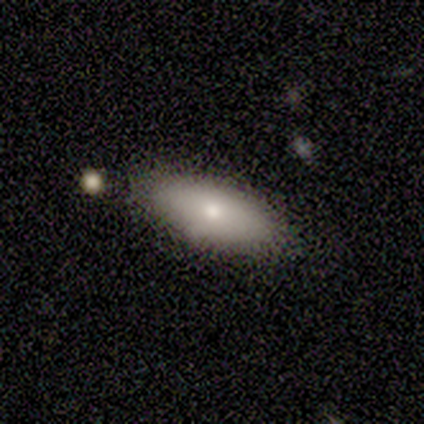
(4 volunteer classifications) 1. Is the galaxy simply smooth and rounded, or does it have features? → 75% smooth, 25% featured or disk, 0% star or artifact.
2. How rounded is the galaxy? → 67% cigar-shaped, 33% in between, 0% round.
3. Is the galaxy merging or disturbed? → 75% none, 25% minor disturbance, 0% major disturbance, 0% merger.